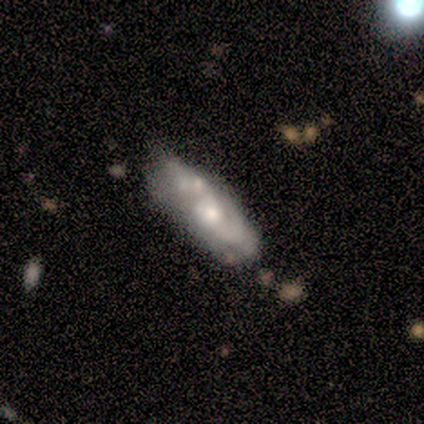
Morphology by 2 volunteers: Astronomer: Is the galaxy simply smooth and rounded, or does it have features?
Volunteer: featured or disk — 100%.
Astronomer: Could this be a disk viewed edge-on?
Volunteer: no — 100%.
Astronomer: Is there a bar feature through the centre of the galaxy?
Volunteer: strong — 50%, tied with no at 50%.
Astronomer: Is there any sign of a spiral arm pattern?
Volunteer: yes — 50%, tied with no at 50%.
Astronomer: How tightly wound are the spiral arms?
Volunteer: medium — 100%.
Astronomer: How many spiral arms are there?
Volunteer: can't tell — 100%.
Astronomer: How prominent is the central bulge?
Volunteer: large — 50%, tied with small at 50%.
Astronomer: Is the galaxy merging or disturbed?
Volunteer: merger — 100%.